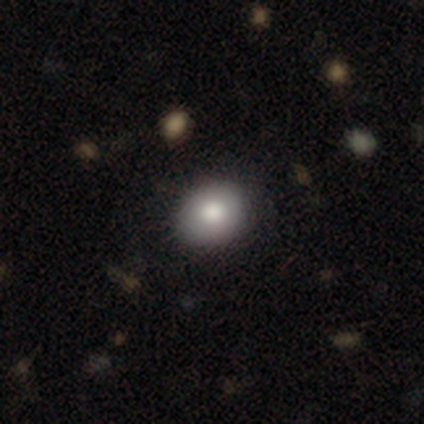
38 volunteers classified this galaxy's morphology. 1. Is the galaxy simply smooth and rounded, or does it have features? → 76% smooth, 16% featured or disk, 8% star or artifact.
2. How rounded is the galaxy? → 59% round, 41% in between, 0% cigar-shaped.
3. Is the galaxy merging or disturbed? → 91% none, 6% minor disturbance, 3% major disturbance, 0% merger.